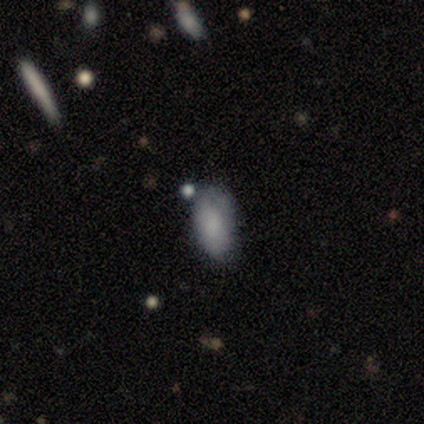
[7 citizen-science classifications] Smooth or featured? 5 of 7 (71%) said smooth. How rounded? 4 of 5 (80%) said in between. Merging? 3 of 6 (50%) said none.